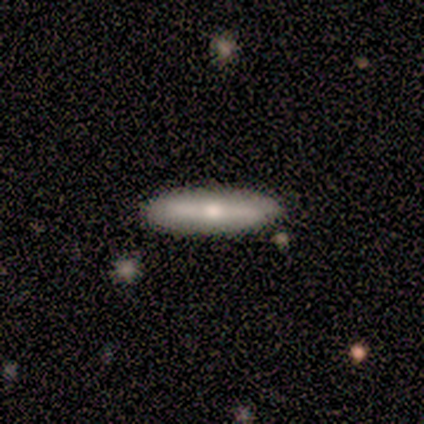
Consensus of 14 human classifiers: This appears to be a featured or disk galaxy (57%) viewed edge-on (75%) with a rounded central bulge (100%). Merging: none (86%).